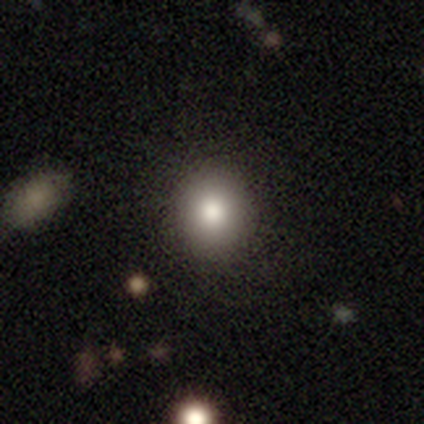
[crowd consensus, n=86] This appears to be a smooth galaxy with no disk features (79%) that is round (87%). Merging: none (95%).